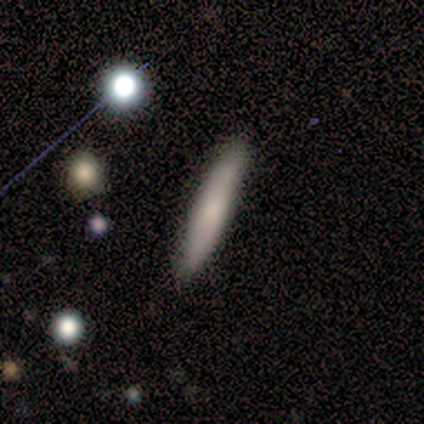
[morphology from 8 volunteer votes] Smooth or featured: smooth — 88% (featured or disk — 12%)
How rounded: cigar-shaped — 86% (in between — 14%)
Merging: none — 100%